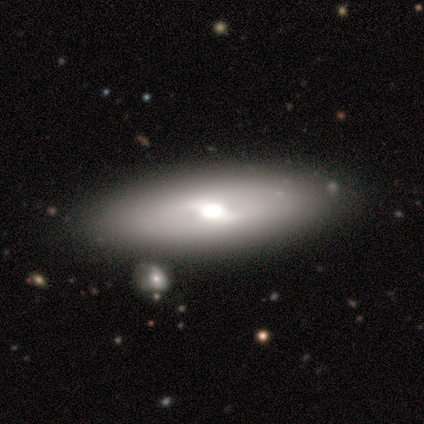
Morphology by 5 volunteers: Smooth or featured? featured or disk (80%)
Edge-on disk? no (75%)
Bar? weak (100%)
Spiral arms? no (67%)
Bulge size? large (67%)
Merging? none (80%)